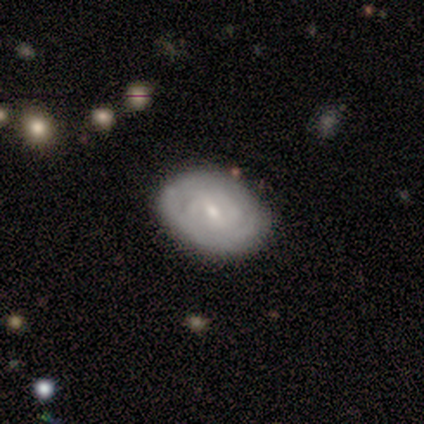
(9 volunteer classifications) smooth_or_featured: featured or disk (p=1.00)
disk_edge_on: no (p=0.89) [alt: yes p=0.11]
bar: weak (p=0.62) [alt: strong p=0.25]
has_spiral_arms: yes (p=1.00)
spiral_winding: tight (p=0.62) [alt: medium p=0.25]
spiral_arm_count: 2 (p=0.38) [alt: 3 p=0.25]
bulge_size: small (p=0.75) [alt: moderate p=0.25]
merging: none (p=0.78) [alt: minor disturbance p=0.11]